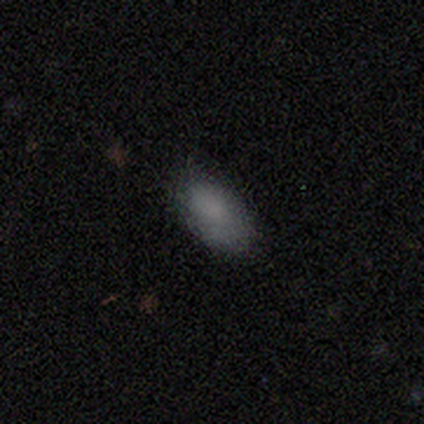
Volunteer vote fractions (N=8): Overall: smooth (100%). How rounded: in between (88%). Merging: none (88%).